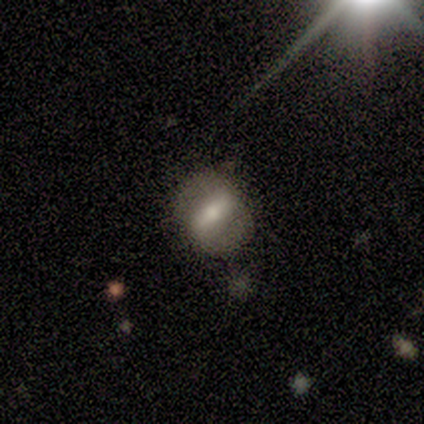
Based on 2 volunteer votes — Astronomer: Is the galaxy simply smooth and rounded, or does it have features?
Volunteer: smooth — 50%, tied with featured or disk at 50%.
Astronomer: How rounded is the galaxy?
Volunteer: round — 100%.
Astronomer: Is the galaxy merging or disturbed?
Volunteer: none — 100%.